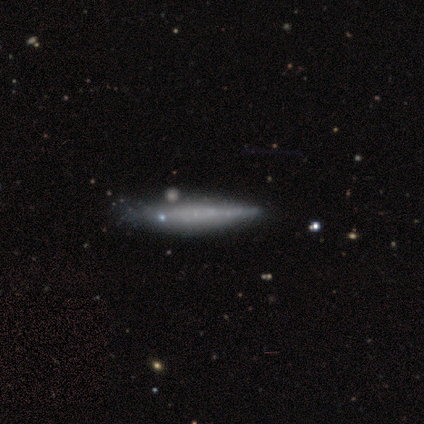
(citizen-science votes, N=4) Q: Smooth or featured?
A: featured or disk (100%)
Q: Edge-on disk?
A: yes (100%)
Q: Edge-on bulge?
A: boxy (50%); tied with: none (50%)
Q: Merging?
A: minor disturbance (75%); runner-up: merger (25%)